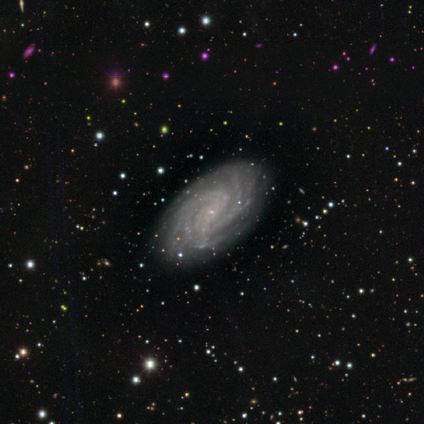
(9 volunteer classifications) smooth_or_featured: featured or disk (p=1.00)
disk_edge_on: no (p=0.78) [alt: yes p=0.22]
bar: no (p=0.57) [alt: weak p=0.43]
has_spiral_arms: yes (p=1.00)
spiral_winding: tight (p=0.71) [alt: medium p=0.29]
spiral_arm_count: can't tell (p=0.43) [alt: 2 p=0.29]
bulge_size: small (p=0.71) [alt: none p=0.29]
merging: none (p=1.00)